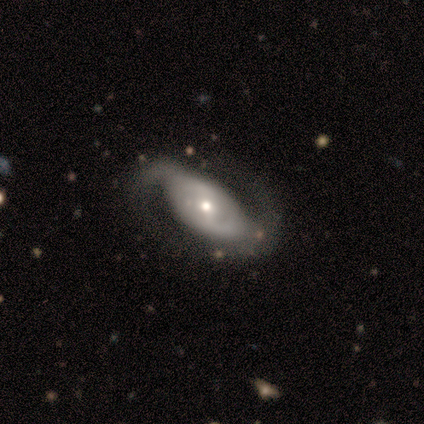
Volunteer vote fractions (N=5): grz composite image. It shows a featured or disk galaxy (80%) with a weak bar (50%), 2 (75%) medium (50%, tied with loose) spiral arms (100%) and a moderate central bulge (75%). Merging: none (80%).